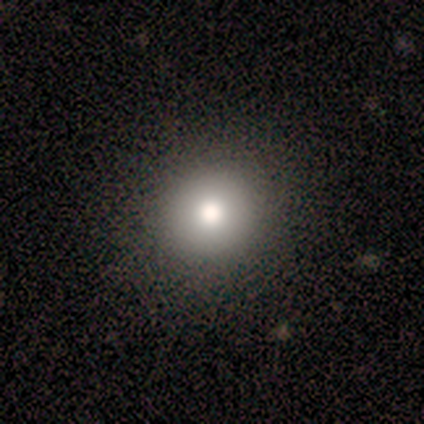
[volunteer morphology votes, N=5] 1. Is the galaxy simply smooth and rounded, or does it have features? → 80% smooth, 20% star or artifact, 0% featured or disk.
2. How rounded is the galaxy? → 100% round, 0% in between, 0% cigar-shaped.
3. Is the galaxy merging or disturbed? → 100% none, 0% minor disturbance, 0% major disturbance, 0% merger.